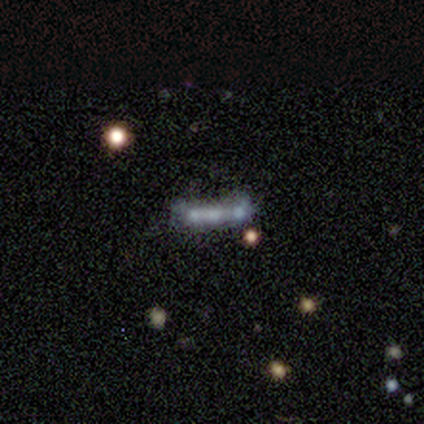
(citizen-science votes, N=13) Overall: featured or disk (46%; smooth 31%). Edge-on disk: yes (67%; no 33%). Edge-on bulge: none (50%, tied with rounded). Merging: none (60%; minor disturbance 20%).